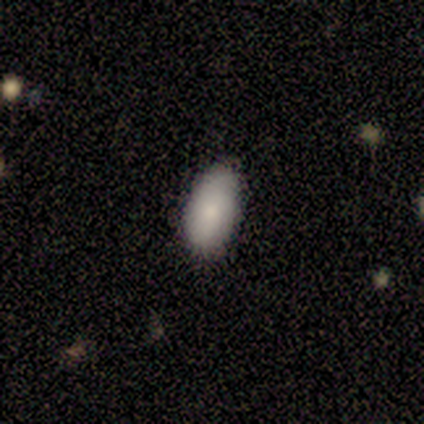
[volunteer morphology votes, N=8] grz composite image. It shows a smooth galaxy with no disk features (75%) that is in between round and cigar-shaped (100%). Merging: none (86%).